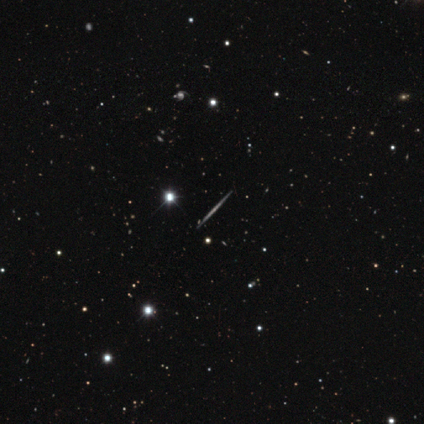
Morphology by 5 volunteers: This appears to be a smooth galaxy with no disk features (60%) that is cigar-shaped (67%). Merging: none (100%).